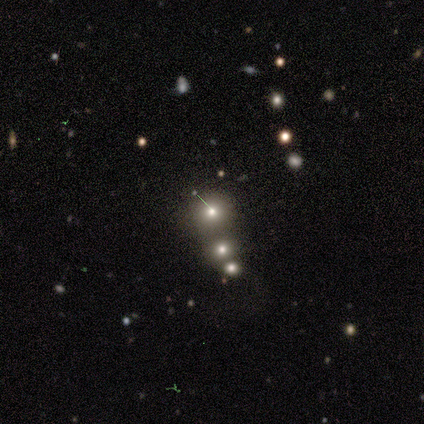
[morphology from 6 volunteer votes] smooth-or-featured: smooth: 50% | star or artifact: 33% | featured or disk: 17%
  how-rounded: round: 100% | in between: 0% | cigar-shaped: 0%
  merging: none: 100% | minor disturbance: 0% | major disturbance: 0% | merger: 0%